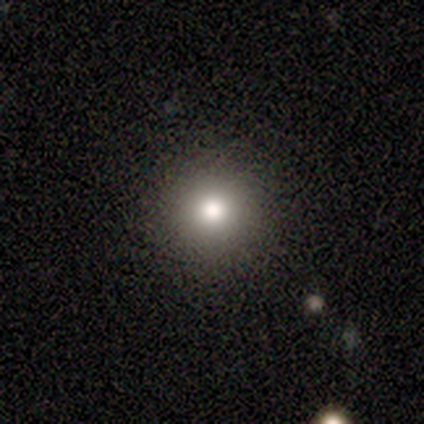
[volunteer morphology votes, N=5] Smooth or featured? smooth (60%)
How rounded? round (67%)
Merging? none (100%)